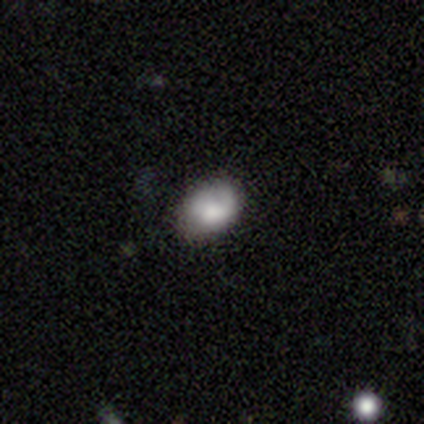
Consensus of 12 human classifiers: A smooth galaxy with no disk features (92%) that is in between round and cigar-shaped (73%). Merging: none (42%, tied with minor disturbance).